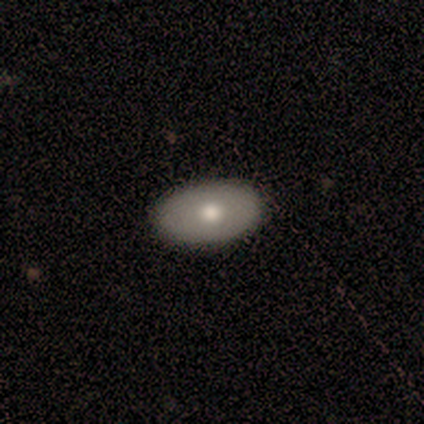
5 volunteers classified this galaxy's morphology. smooth_or_featured: smooth (p=1.00)
how_rounded: in between (p=0.80) [alt: round p=0.20]
merging: none (p=0.80) [alt: minor disturbance p=0.20]